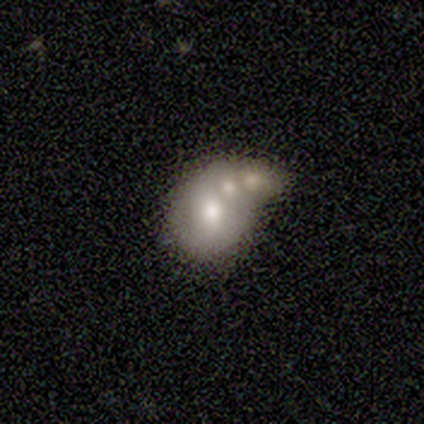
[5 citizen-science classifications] A star or artifact, not a galaxy (60%).